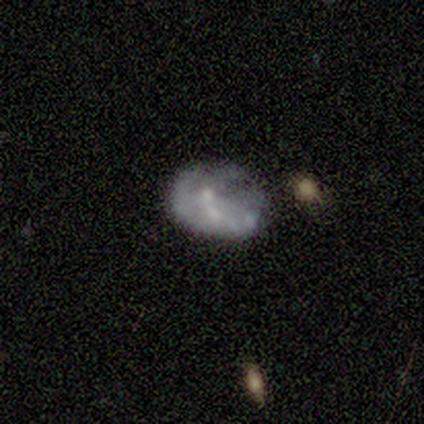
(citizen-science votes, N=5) Smooth or featured: featured or disk — 80% (smooth — 20%)
Edge-on disk: no — 100%
Bar: no — 75% (weak — 25%)
Spiral arms: no — 75% (yes — 25%)
Bulge size: small — 50% (tied with none — 50%)
Merging: merger — 40% (none — 20%)